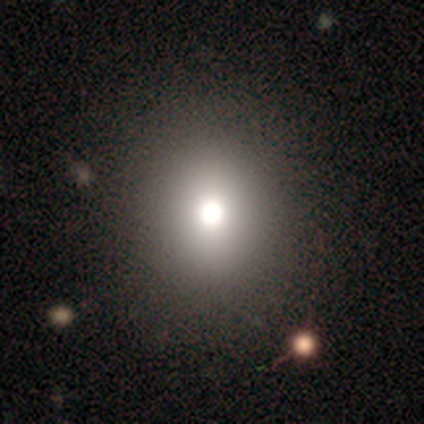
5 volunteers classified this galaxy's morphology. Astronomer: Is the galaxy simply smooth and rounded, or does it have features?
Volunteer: star or artifact — 60%.